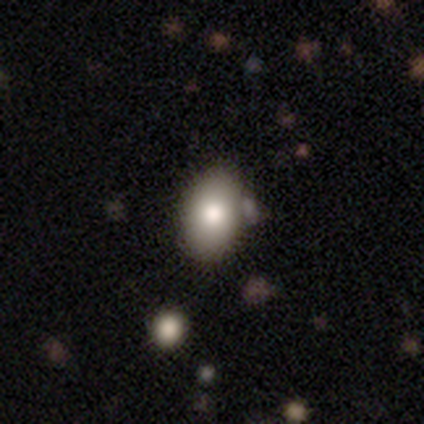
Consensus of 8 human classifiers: Smooth or featured: smooth — 100%
How rounded: in between — 100%
Merging: none — 62% (minor disturbance — 25%)